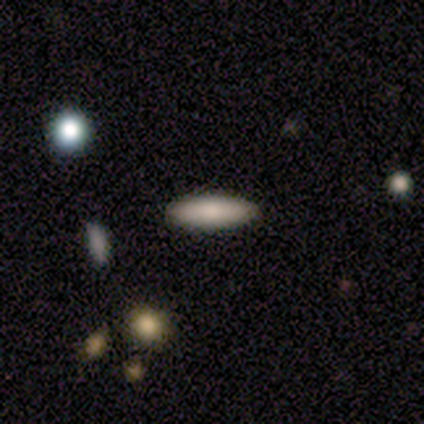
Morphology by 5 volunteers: smooth_or_featured: smooth (p=0.80) [alt: featured or disk p=0.20]
how_rounded: cigar-shaped (p=0.75) [alt: in between p=0.25]
merging: none (p=0.80) [alt: minor disturbance p=0.20]